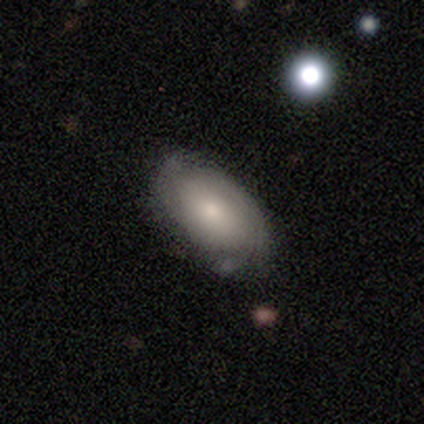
Smooth or featured: featured or disk — 63% (smooth — 32%)
Edge-on disk: no — 96% (yes — 4%)
Bar: no — 78% (weak — 22%)
Spiral arms: yes — 83% (no — 17%)
Spiral winding: tight — 63% (medium — 26%)
Spiral arm count: 2 — 53% (can't tell — 26%)
Bulge size: moderate — 61% (small — 22%)
Merging: none — 69% (minor disturbance — 28%)